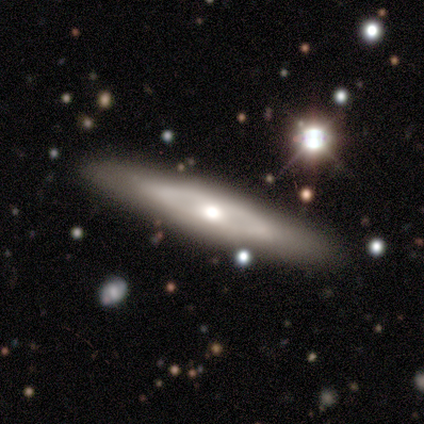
Smooth or featured? 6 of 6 (100%) said featured or disk. Edge-on disk? 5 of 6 (83%) said yes. Edge-on bulge? 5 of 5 (100%) said rounded. Merging? 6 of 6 (100%) said none.